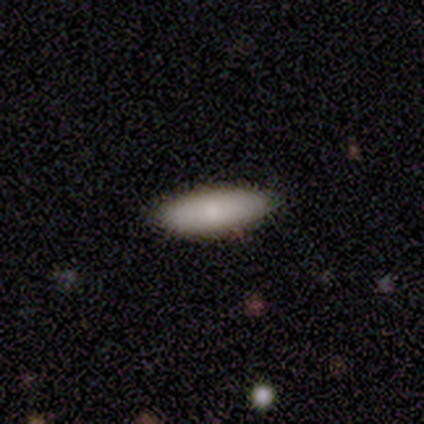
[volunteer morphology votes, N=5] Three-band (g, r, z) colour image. It shows a smooth galaxy with no disk features (100%) that is cigar-shaped (60%). Merging: none (80%).